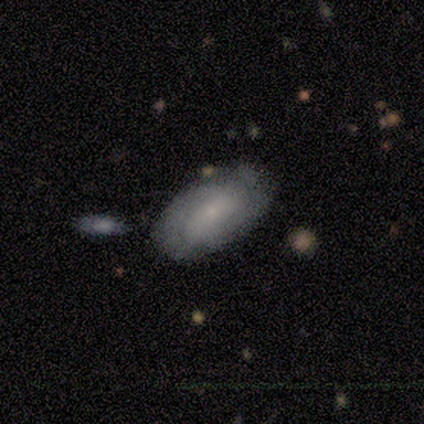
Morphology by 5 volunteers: Smooth or featured?
  - featured or disk: 60% *
  - star or artifact: 40%
  - smooth: 0%
Edge-on disk?
  - no: 100% *
  - yes: 0%
Bar?
  - weak: 67% *
  - no: 33%
  - strong: 0%
Spiral arms?
  - yes: 100% *
  - no: 0%
Spiral winding?
  - tight: 100% *
  - medium: 0%
  - loose: 0%
Spiral arm count?
  - 2: 67% *
  - can't tell: 33%
  - 1: 0%
  - 3: 0%
  - 4: 0%
  - more than 4: 0%
Bulge size?
  - small: 67% *
  - moderate: 33%
  - dominant: 0%
  - large: 0%
  - none: 0%
Merging?
  - none: 33% * (tied)
  - minor disturbance: 33% * (tied)
  - merger: 33% * (tied)
  - major disturbance: 0%